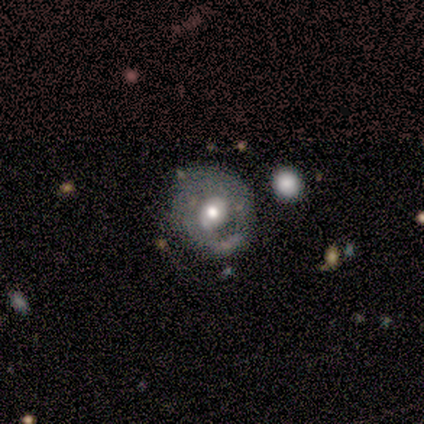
featured or disk 100%, smooth 0%, star or artifact 0%. Down the decision tree: edge-on disk — no (100%); bar — strong (40%, tied with no); spiral arms — no (60%); bulge size — moderate (100%); merging — none (60%).